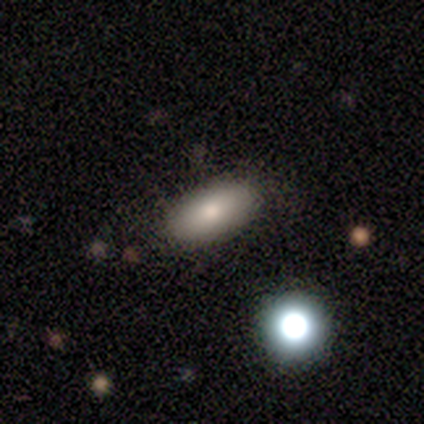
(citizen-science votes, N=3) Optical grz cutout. It shows a star or artifact, not a galaxy (67%).